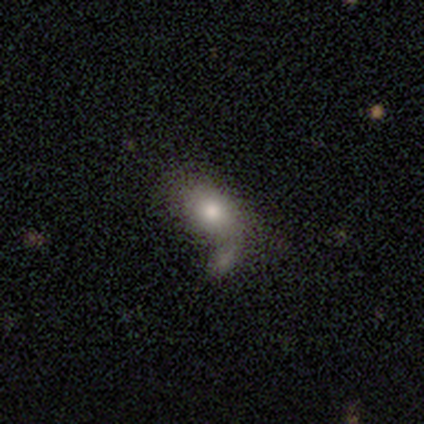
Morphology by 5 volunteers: Smooth or featured? 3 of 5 (60%) said smooth. How rounded? 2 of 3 (67%) said in between. Merging? 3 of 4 (75%) said major disturbance.